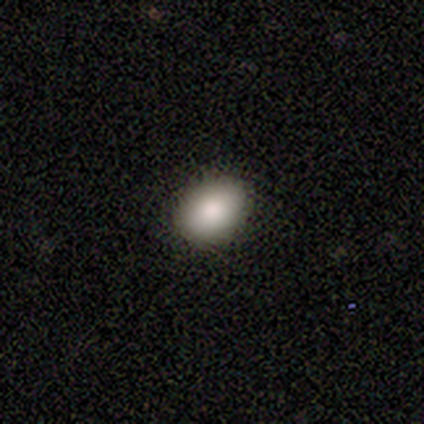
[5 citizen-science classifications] Smooth or featured? 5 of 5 (100%) said smooth. How rounded? 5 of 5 (100%) said in between. Merging? 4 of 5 (80%) said none.